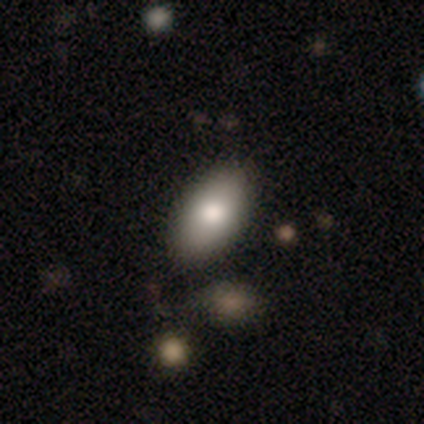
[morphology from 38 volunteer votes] This appears to be a smooth galaxy with no disk features (82%) that is in between round and cigar-shaped (97%). Merging: none (94%).